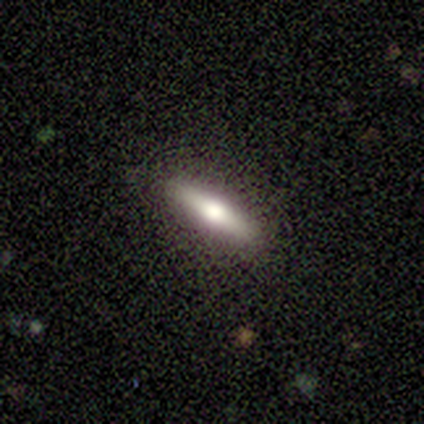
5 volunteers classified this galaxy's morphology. Smooth or featured? smooth (60%)
How rounded? cigar-shaped (67%)
Merging? none (100%)